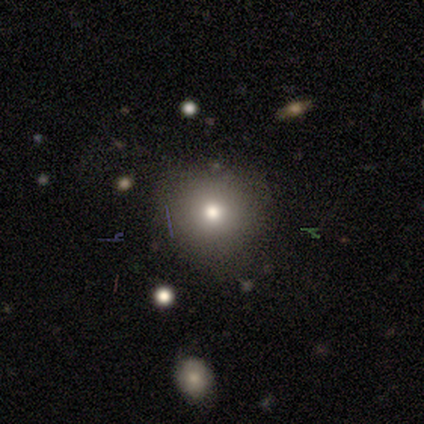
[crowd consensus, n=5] Overall: smooth (100%). How rounded: round (100%). Merging: none (80%).